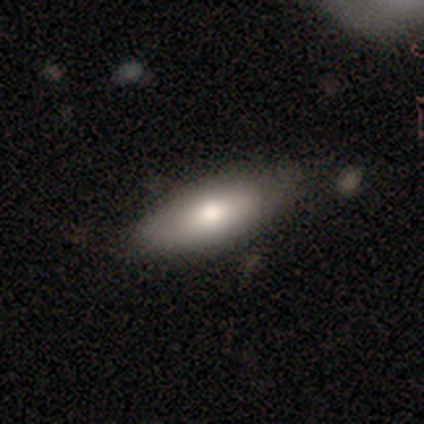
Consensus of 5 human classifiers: A smooth galaxy with no disk features (80%) that is in between round and cigar-shaped (100%). Merging: none (80%).